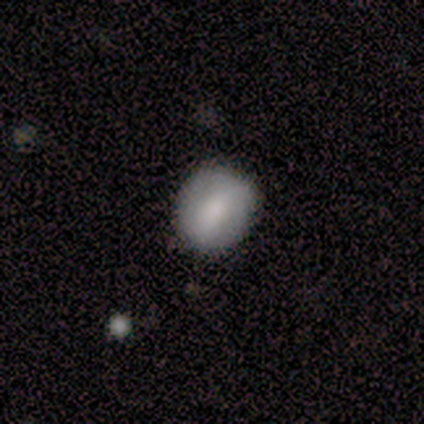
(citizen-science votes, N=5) smooth_or_featured: smooth (p=0.80) [alt: featured or disk p=0.20]
how_rounded: round (p=0.75) [alt: in between p=0.25]
merging: none (p=0.80) [alt: minor disturbance p=0.20]